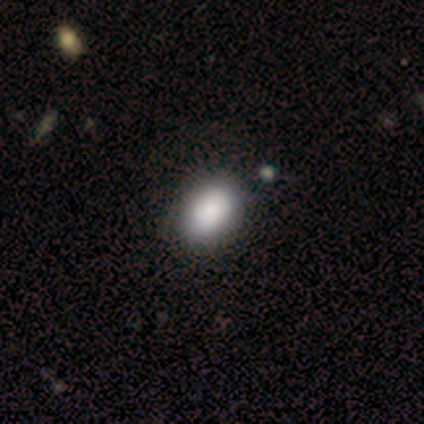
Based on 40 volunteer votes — smooth_or_featured: smooth (p=0.88) [alt: featured or disk p=0.07]
how_rounded: in between (p=0.80) [alt: round p=0.20]
merging: none (p=0.53) [alt: merger p=0.11]